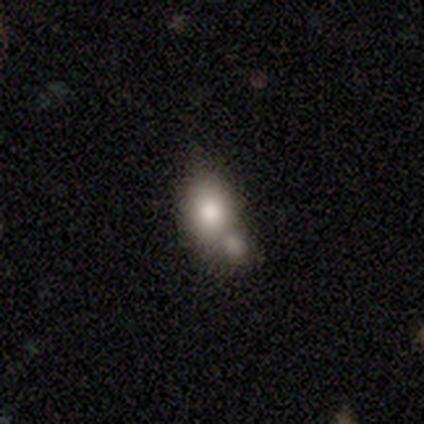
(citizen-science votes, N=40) This is likely a smooth galaxy (65%). How rounded: clearly in between (92%). Merging: likely merger (74%).